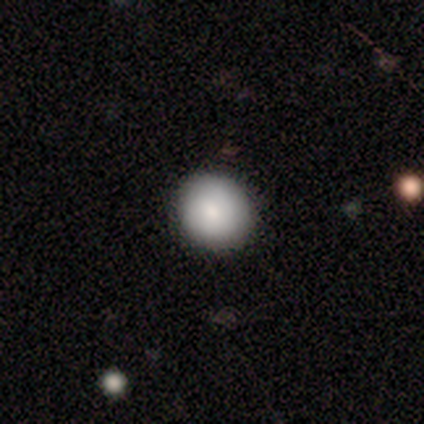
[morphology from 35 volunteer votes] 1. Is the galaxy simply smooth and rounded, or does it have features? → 80% smooth, 14% featured or disk, 6% star or artifact.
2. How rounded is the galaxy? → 86% round, 14% in between, 0% cigar-shaped.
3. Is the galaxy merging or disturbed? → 94% none, 6% minor disturbance, 0% major disturbance, 0% merger.